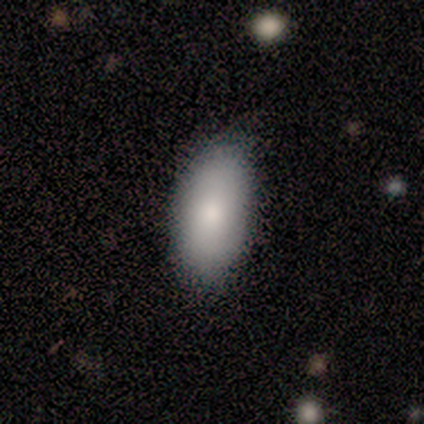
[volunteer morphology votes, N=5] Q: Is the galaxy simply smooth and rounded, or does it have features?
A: smooth — 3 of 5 (60%).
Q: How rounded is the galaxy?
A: in between — 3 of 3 (100%).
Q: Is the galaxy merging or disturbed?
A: none — 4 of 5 (80%).